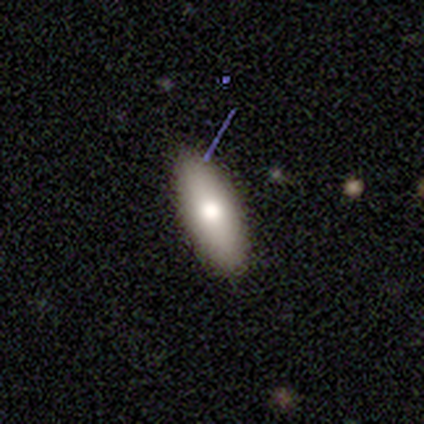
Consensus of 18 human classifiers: smooth_or_featured: smooth (p=0.50) [alt: featured or disk p=0.33]
how_rounded: in between (p=0.67) [alt: cigar-shaped p=0.33]
merging: none (p=0.93) [alt: minor disturbance p=0.07]